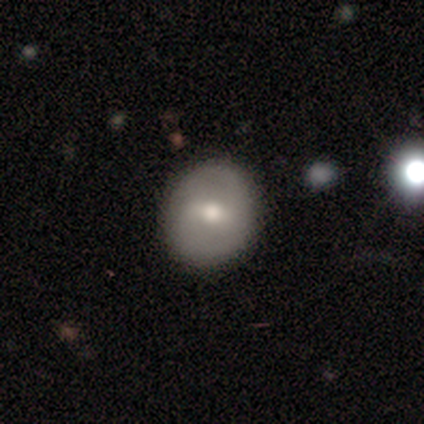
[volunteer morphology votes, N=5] type=featured or disk (60%); edge-on=no (100%); bar=weak (67%); spiral arms=yes (67%); winding=tight (50%, tied with loose); arm count=2 (50%, tied with can't tell); bulge=moderate (100%); merging=none (100%).